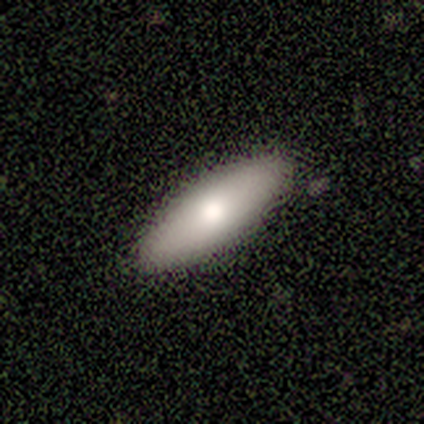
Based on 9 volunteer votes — Smooth or featured: smooth — 78% (featured or disk — 22%)
How rounded: in between — 57% (cigar-shaped — 43%)
Merging: none — 89% (minor disturbance — 11%)